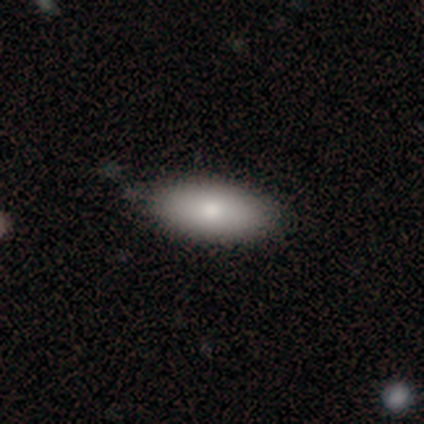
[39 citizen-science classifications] Volunteers were most divided on "merging": none: 64%, minor disturbance: 5%, merger: 3%, major disturbance: 0%. More confident: smooth or featured — smooth (90%); how rounded — in between (86%).